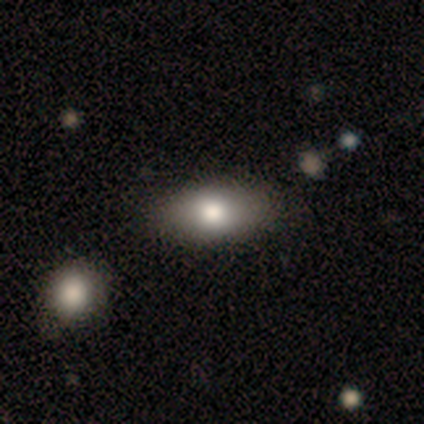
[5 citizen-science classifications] Smooth or featured? 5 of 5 (100%) said smooth. How rounded? 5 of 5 (100%) said in between. Merging? 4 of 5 (80%) said none.